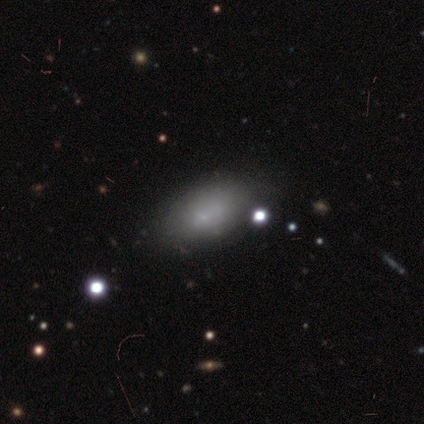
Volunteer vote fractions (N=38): This appears to be a smooth galaxy with no disk features (71%) that is in between round and cigar-shaped (100%). Merging: none (63%).